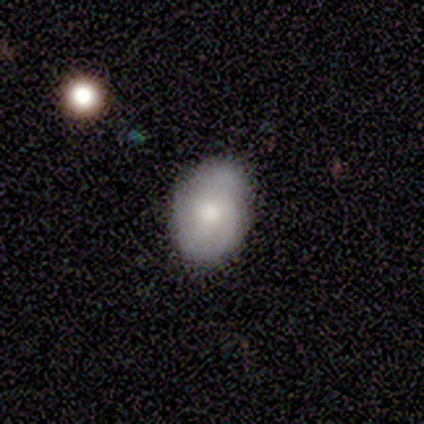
smooth-or-featured: smooth: 50% (tied) | featured or disk: 50% (tied) | star or artifact: 0%
  how-rounded: in between: 100% | round: 0% | cigar-shaped: 0%
  merging: none: 64% | minor disturbance: 36% | major disturbance: 0% | merger: 0%